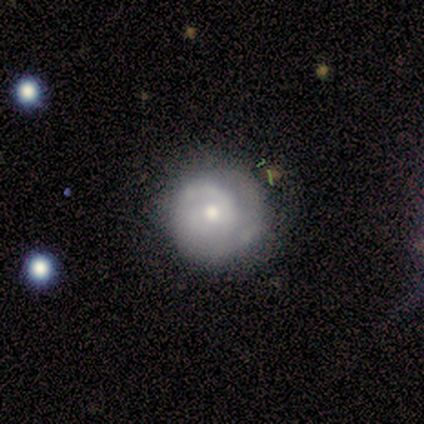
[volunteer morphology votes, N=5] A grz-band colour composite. It shows a featured or disk galaxy (100%) with no bar (80%), tight (80%) spiral arms (100%) and a small central bulge (80%). Merging: none (80%).